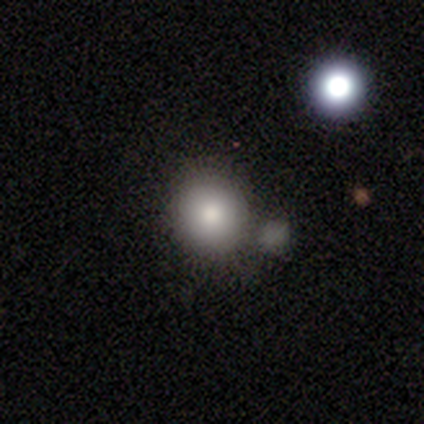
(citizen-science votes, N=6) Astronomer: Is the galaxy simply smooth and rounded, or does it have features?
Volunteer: smooth — 83%.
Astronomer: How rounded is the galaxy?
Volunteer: round — 80%.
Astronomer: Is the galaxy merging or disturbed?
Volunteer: minor disturbance — 40% (runner-up: none, 20%).